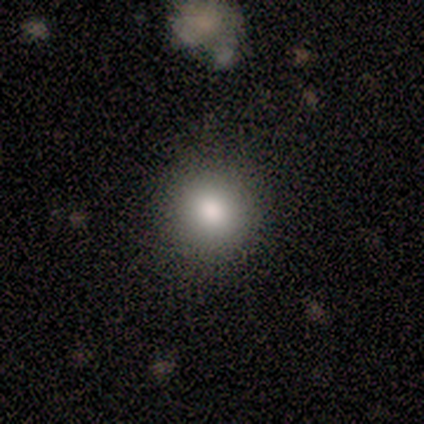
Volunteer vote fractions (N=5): Q: Smooth or featured?
A: smooth (80%); runner-up: star or artifact (20%)
Q: How rounded?
A: round (100%)
Q: Merging?
A: none (100%)